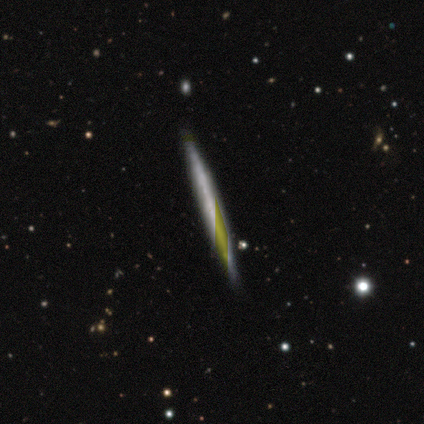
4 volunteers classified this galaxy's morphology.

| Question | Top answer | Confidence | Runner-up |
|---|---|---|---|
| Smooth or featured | featured or disk | 75% | smooth (25%) |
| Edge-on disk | yes | 100% | — |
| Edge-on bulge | none | 100% | — |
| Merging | none | 100% | — |